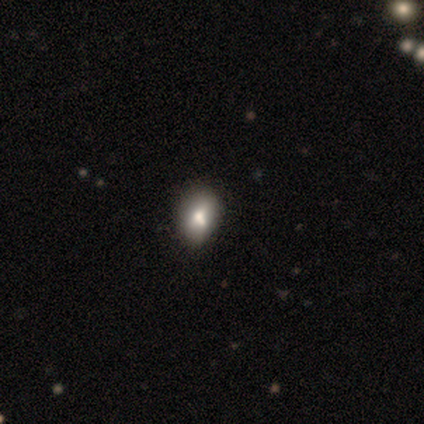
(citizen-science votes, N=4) smooth_or_featured: smooth (p=1.00)
how_rounded: round (p=0.50) [tied with: in between p=0.50]
merging: none (p=0.50) [alt: minor disturbance p=0.25]